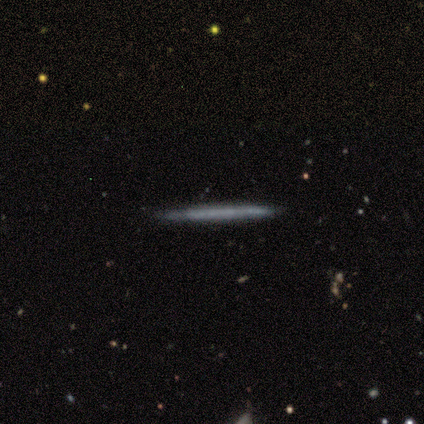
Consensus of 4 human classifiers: Consensus on every question: smooth or featured — smooth (100%); how rounded — cigar-shaped (100%); merging — none (100%).